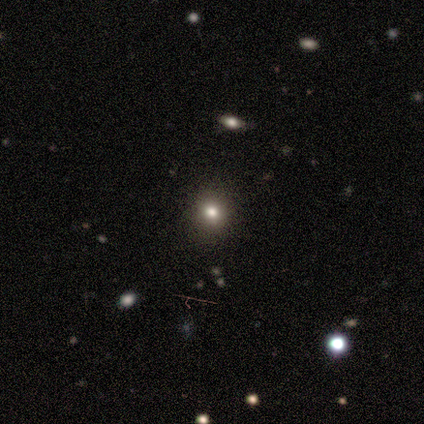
smooth-or-featured: smooth: 50% (tied) | star or artifact: 50% (tied) | featured or disk: 0%
  how-rounded: round: 100% | in between: 0% | cigar-shaped: 0%
  merging: none: 100% | minor disturbance: 0% | major disturbance: 0% | merger: 0%